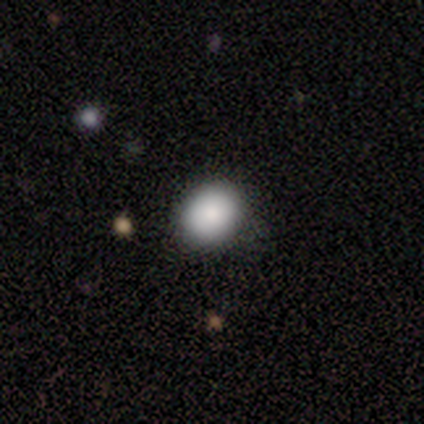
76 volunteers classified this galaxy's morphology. smooth 91%, featured or disk 5%, star or artifact 4%. Down the decision tree: how rounded — round (75%); merging — none (44%).